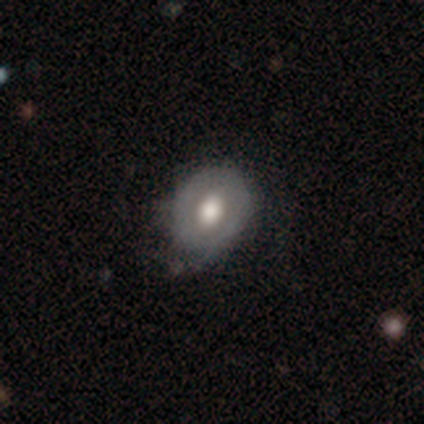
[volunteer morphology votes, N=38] Smooth or featured? 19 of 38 (50%) said smooth. How rounded? 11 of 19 (58%) said round. Merging? 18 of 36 (50%) said none.